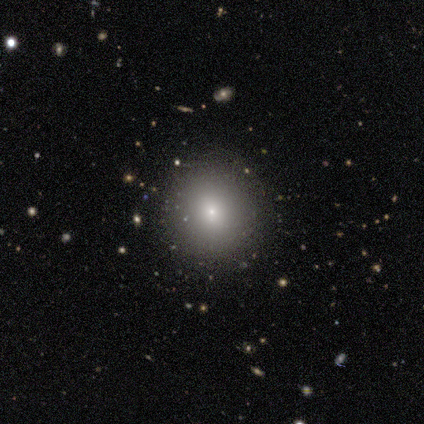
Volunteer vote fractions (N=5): smooth_or_featured: smooth (p=0.80) [alt: star or artifact p=0.20]
how_rounded: round (p=0.75) [alt: in between p=0.25]
merging: none (p=1.00)